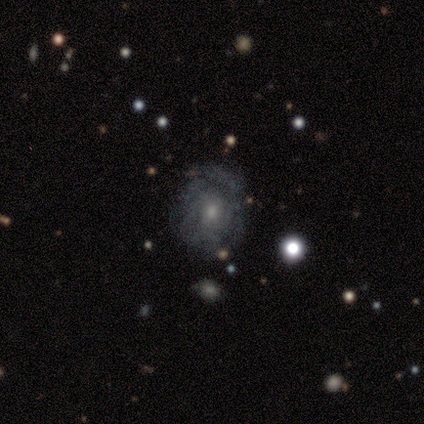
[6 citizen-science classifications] Q: Smooth or featured?
A: featured or disk (67%); runner-up: smooth (17%)
Q: Edge-on disk?
A: no (100%)
Q: Bar?
A: no (75%); runner-up: weak (25%)
Q: Spiral arms?
A: yes (75%); runner-up: no (25%)
Q: Spiral winding?
A: tight (67%); runner-up: medium (33%)
Q: Spiral arm count?
A: can't tell (100%)
Q: Bulge size?
A: moderate (50%); runner-up: small (25%)
Q: Merging?
A: none (80%); runner-up: major disturbance (20%)